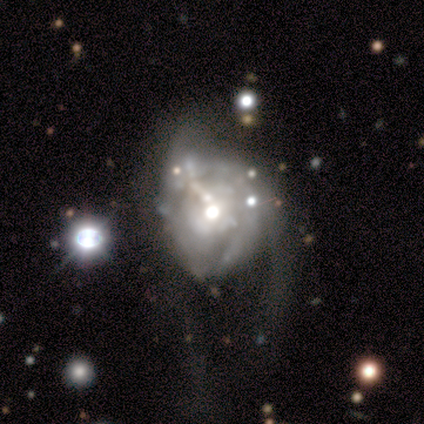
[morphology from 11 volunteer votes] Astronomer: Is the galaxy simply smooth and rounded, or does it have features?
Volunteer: featured or disk — 91%.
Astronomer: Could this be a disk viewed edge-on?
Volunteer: no — 100%.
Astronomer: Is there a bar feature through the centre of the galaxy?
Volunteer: no — 60%.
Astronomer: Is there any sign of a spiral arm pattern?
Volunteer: yes — 60% (runner-up: no, 40%).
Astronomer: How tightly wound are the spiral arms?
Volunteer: medium — 67%.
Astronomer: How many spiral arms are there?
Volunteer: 2 — 50% (runner-up: can't tell, 33%).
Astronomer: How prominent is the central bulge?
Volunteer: moderate — 70%.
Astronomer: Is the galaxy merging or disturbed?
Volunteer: major disturbance — 45% (runner-up: minor disturbance, 36%).